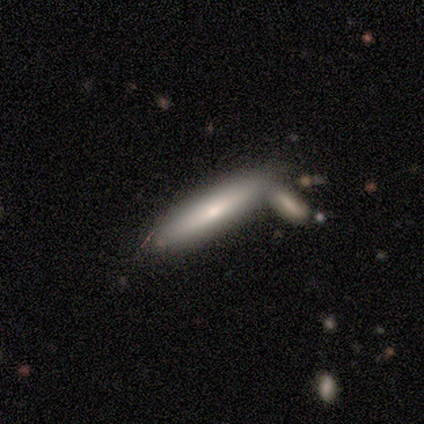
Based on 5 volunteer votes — smooth-or-featured: smooth: 60% | featured or disk: 40% | star or artifact: 0%
  how-rounded: cigar-shaped: 67% | in between: 33% | round: 0%
  merging: none: 80% | merger: 20% | minor disturbance: 0% | major disturbance: 0%